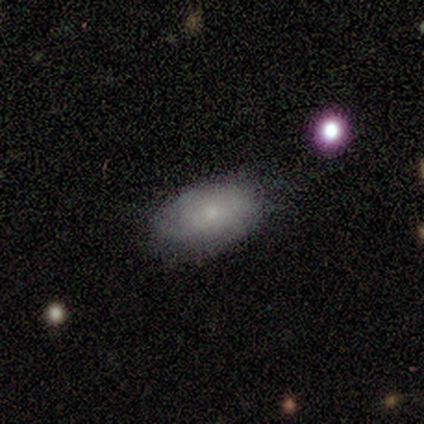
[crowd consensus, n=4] smooth 50% (tied), featured or disk 50% (tied), star or artifact 0%. Down the decision tree: how rounded — in between (100%); merging — none (75%).